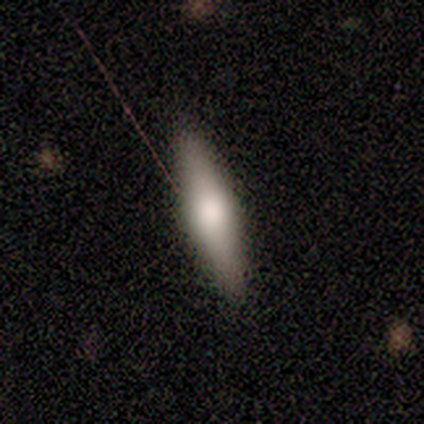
Volunteers were most divided on "how rounded": in between: 80%, cigar-shaped: 20%, round: 0%. More confident: smooth or featured — smooth (100%); merging — none (100%).